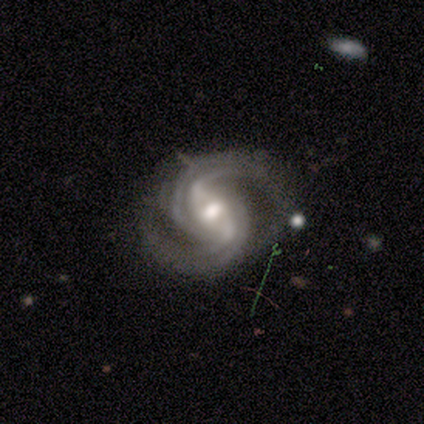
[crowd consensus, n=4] smooth-or-featured: featured or disk: 100% | smooth: 0% | star or artifact: 0%
  disk-edge-on: no: 100% | yes: 0%
    bar: strong: 75% | weak: 25% | no: 0%
    has-spiral-arms: yes: 100% | no: 0%
      spiral-winding: tight: 50% (tied) | medium: 50% (tied) | loose: 0%
      spiral-arm-count: 4: 50% | 2: 25% | 3: 25% | 1: 0% | more than 4: 0% | can't tell: 0%
    bulge-size: moderate: 100% | dominant: 0% | large: 0% | small: 0% | none: 0%
  merging: none: 50% (tied) | minor disturbance: 50% (tied) | major disturbance: 0% | merger: 0%